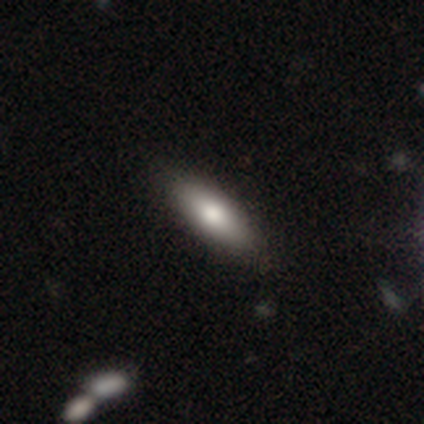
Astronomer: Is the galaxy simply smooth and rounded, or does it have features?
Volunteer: smooth — 100%.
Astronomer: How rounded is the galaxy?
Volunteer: cigar-shaped — 60% (runner-up: in between, 40%).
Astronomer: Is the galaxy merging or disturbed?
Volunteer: none — 100%.